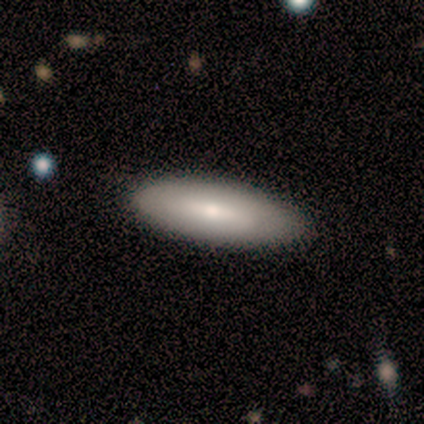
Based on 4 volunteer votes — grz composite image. It shows a smooth galaxy with no disk features (100%) that is in between round and cigar-shaped (75%). Merging: none (75%).